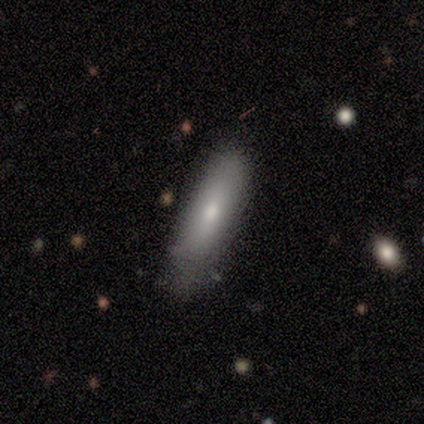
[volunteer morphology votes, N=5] A smooth galaxy with no disk features (80%) that is cigar-shaped (100%).

Vote fractions:
- Smooth or featured? smooth: 80% / star or artifact: 20% / featured or disk: 0%
- How rounded? cigar-shaped: 100% / round: 0% / in between: 0%
- Merging? none: 75% / minor disturbance: 25% / major disturbance: 0% / merger: 0%